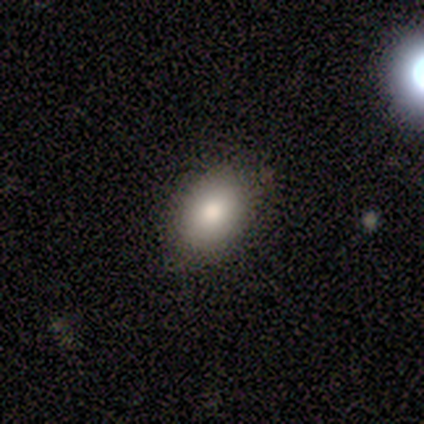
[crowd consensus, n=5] Smooth or featured?
  - smooth: 100% *
  - featured or disk: 0%
  - star or artifact: 0%
How rounded?
  - in between: 60% *
  - round: 40%
  - cigar-shaped: 0%
Merging?
  - none: 100% *
  - minor disturbance: 0%
  - major disturbance: 0%
  - merger: 0%